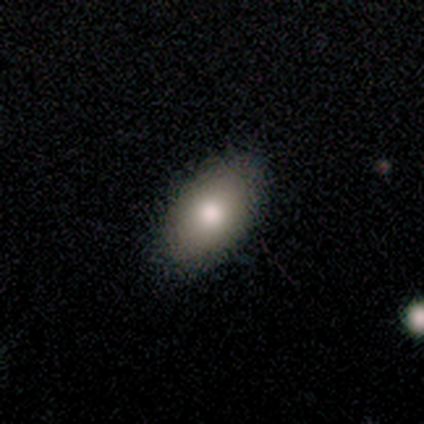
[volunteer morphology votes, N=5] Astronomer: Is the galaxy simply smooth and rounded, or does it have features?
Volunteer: smooth — 60% (runner-up: featured or disk, 40%).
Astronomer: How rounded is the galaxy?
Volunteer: in between — 67%.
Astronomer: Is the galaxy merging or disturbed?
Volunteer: none — 100%.